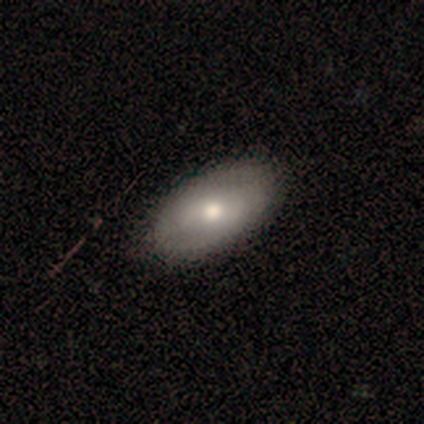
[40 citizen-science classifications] Smooth or featured? 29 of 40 (72%) said smooth. How rounded? 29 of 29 (100%) said in between. Merging? 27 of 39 (69%) said none.